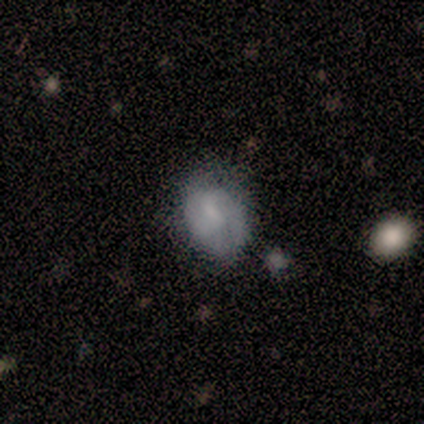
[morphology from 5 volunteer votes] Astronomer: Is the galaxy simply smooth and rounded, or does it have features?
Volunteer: featured or disk — 60%.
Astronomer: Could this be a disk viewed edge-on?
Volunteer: no — 100%.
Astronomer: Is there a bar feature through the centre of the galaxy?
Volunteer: no — 100%.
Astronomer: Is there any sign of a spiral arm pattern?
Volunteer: no — 67%.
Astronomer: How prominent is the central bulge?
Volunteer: small — 67%.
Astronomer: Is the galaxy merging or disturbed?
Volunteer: none — 100%.